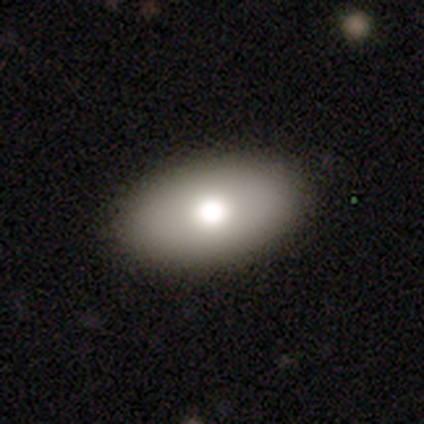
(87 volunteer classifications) A smooth galaxy with no disk features (67%) that is in between round and cigar-shaped (95%).

Vote fractions:
- Smooth or featured? smooth: 67% / featured or disk: 24% / star or artifact: 9%
- How rounded? in between: 95% / round: 5% / cigar-shaped: 0%
- Merging? none: 90% / minor disturbance: 6% / major disturbance: 4% / merger: 0%